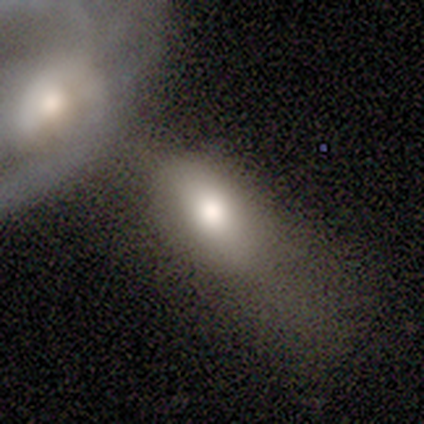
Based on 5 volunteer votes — A smooth galaxy with no disk features (100%) that is in between round and cigar-shaped (60%). Merging: none (40%, tied with merger).